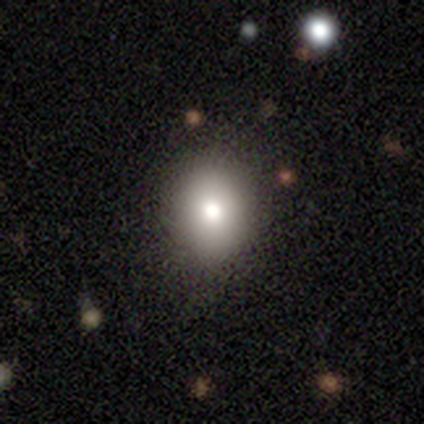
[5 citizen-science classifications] smooth 80%, featured or disk 20%, star or artifact 0%. Down the decision tree: how rounded — in between (75%); merging — none (100%).